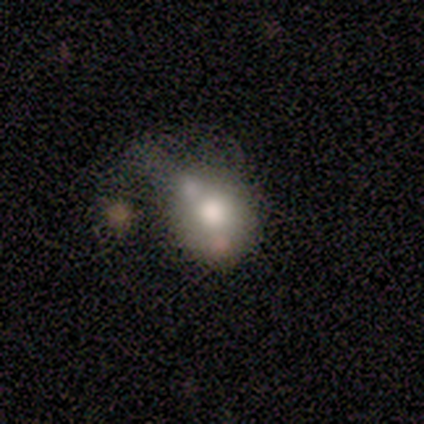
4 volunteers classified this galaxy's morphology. Overall: smooth (75%). How rounded: in between (67%; round 33%). Merging: none (75%).